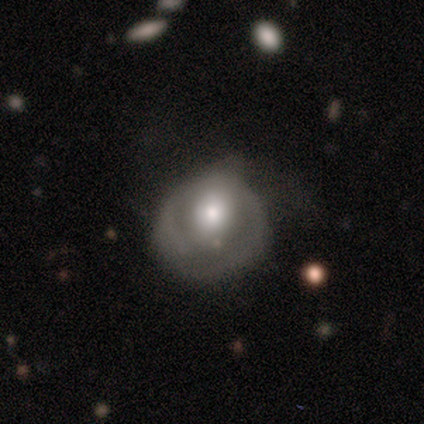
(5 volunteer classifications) A smooth galaxy with no disk features (40%, tied with featured or disk) that is round (50%, tied with in between).

Vote fractions:
- Smooth or featured? smooth: 40% (tied) / featured or disk: 40% (tied) / star or artifact: 20%
- How rounded? round: 50% (tied) / in between: 50% (tied) / cigar-shaped: 0%
- Merging? none: 75% / minor disturbance: 25% / major disturbance: 0% / merger: 0%